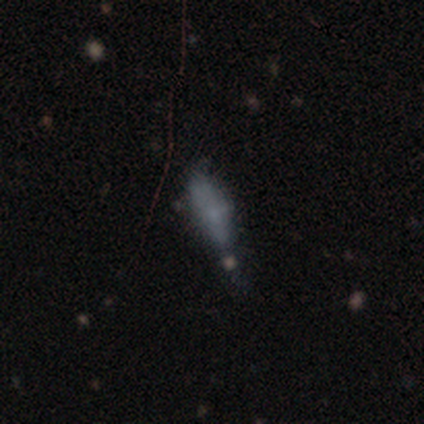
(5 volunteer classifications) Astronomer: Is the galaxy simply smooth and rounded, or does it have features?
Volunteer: smooth — 80%.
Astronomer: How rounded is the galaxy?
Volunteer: cigar-shaped — 75%.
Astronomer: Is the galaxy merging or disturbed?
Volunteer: none — 40%, tied with minor disturbance at 40%.